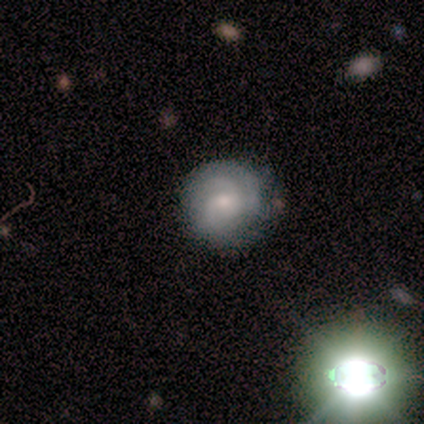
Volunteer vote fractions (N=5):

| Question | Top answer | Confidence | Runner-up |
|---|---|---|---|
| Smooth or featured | featured or disk | 80% | star or artifact (20%) |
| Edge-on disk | no | 75% | yes (25%) |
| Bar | no | 67% | strong (33%) |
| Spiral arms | yes | 100% | — |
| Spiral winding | tight | 67% | medium (33%) |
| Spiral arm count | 3 | 67% | can't tell (33%) |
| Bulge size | moderate | 67% | large (33%) |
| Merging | none | 100% | — |